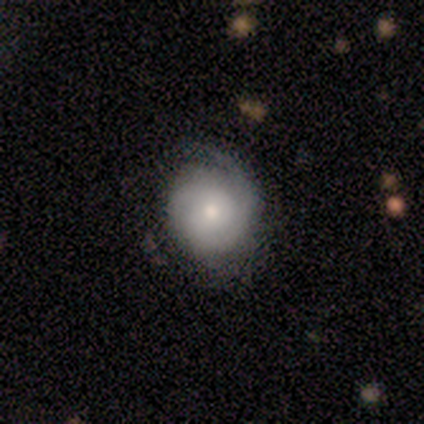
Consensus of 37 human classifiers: A featured or disk galaxy (73%) with no bar (81%), 1 (58%) tight (68%) spiral arms (73%) and a small central bulge (58%).

Vote fractions:
- Smooth or featured? featured or disk: 73% / smooth: 24% / star or artifact: 3%
- Edge-on disk? no: 96% / yes: 4%
- Bar? no: 81% / weak: 15% / strong: 4%
- Spiral arms? yes: 73% / no: 27%
- Spiral winding? tight: 68% / medium: 26% / loose: 5%
- Spiral arm count? 1: 58% / can't tell: 32% / 2: 11% / 3: 0% / 4: 0% / more than 4: 0%
- Bulge size? small: 58% / moderate: 35% / large: 8% / dominant: 0% / none: 0%
- Merging? none: 56% / minor disturbance: 42% / major disturbance: 3% / merger: 0%